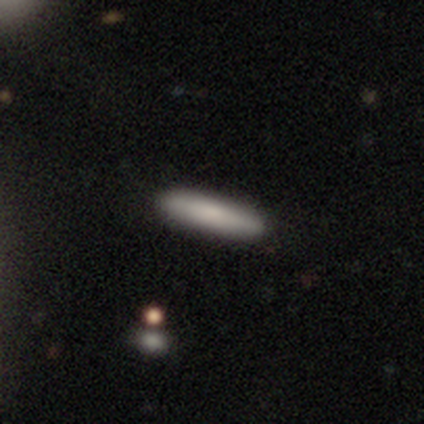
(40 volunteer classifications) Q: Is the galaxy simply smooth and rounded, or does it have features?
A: smooth — 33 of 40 (82%).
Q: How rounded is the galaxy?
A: cigar-shaped — 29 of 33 (88%).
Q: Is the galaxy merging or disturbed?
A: none — 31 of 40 (78%).